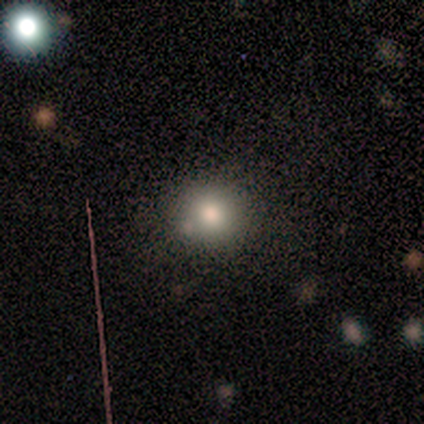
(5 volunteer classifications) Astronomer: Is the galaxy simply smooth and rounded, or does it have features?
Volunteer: smooth — 60% (runner-up: star or artifact, 40%).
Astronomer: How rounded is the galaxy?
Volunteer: round — 100%.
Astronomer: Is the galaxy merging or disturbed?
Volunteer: none — 100%.